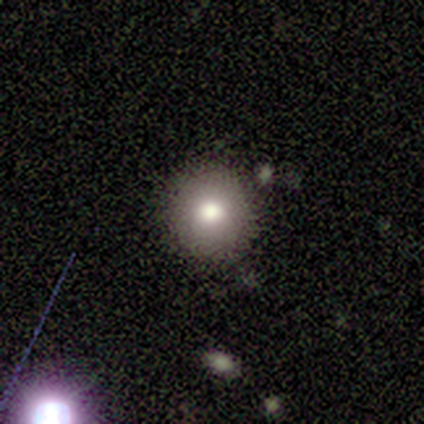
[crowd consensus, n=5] A smooth galaxy with no disk features (80%) that is round (100%).

Vote fractions:
- Smooth or featured? smooth: 80% / featured or disk: 20% / star or artifact: 0%
- How rounded? round: 100% / in between: 0% / cigar-shaped: 0%
- Merging? none: 80% / minor disturbance: 20% / major disturbance: 0% / merger: 0%